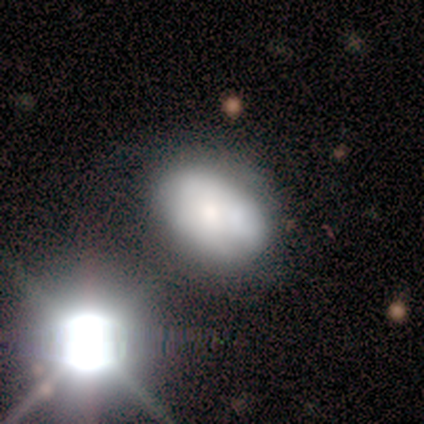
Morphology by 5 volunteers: Q: Smooth or featured?
A: smooth (80%); runner-up: star or artifact (20%)
Q: How rounded?
A: in between (100%)
Q: Merging?
A: none (50%); tied with: minor disturbance (50%)